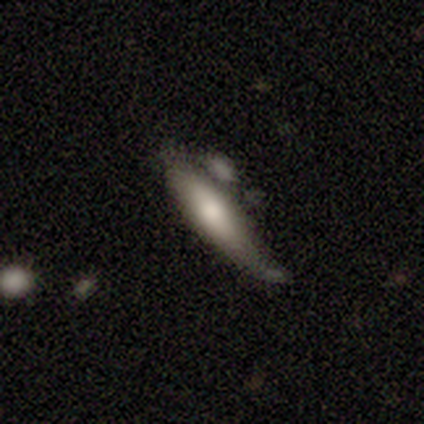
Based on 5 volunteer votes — smooth_or_featured: smooth (p=0.80) [alt: featured or disk p=0.20]
how_rounded: cigar-shaped (p=1.00)
merging: minor disturbance (p=0.60) [alt: none p=0.20]